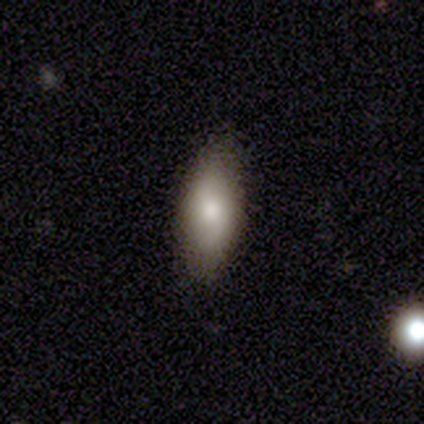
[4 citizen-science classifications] smooth_or_featured: smooth (p=1.00)
how_rounded: in between (p=0.75) [alt: cigar-shaped p=0.25]
merging: none (p=1.00)